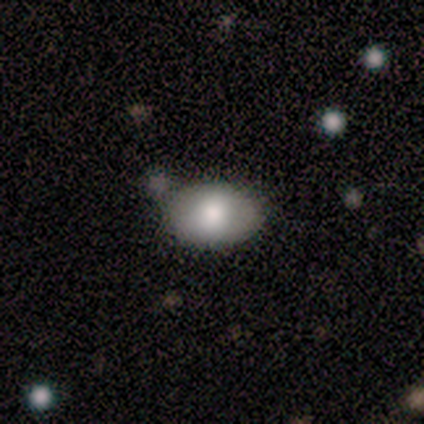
smooth_or_featured: smooth (p=0.74) [alt: featured or disk p=0.15]
how_rounded: in between (p=0.83) [alt: round p=0.17]
merging: none (p=0.66) [alt: merger p=0.20]